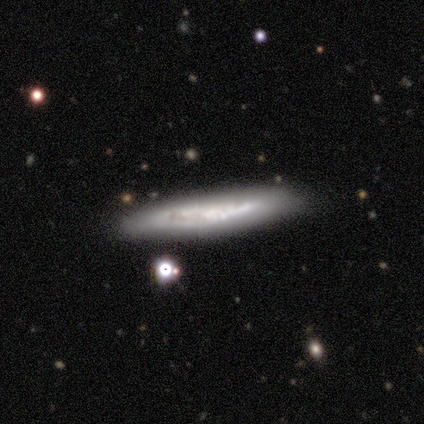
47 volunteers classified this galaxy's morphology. Smooth or featured? 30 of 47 (64%) said featured or disk. Edge-on disk? 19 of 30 (63%) said yes. Edge-on bulge? 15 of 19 (79%) said none. Merging? 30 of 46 (65%) said none.